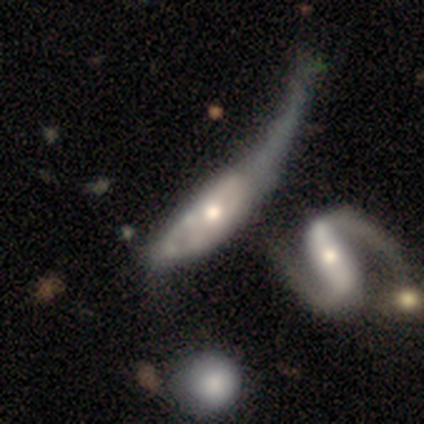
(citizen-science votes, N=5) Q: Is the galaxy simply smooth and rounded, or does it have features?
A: featured or disk — 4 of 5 (80%).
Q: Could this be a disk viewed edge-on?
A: no — 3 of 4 (75%).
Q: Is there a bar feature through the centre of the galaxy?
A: weak — 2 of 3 (67%).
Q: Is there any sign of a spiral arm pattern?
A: yes — 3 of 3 (100%).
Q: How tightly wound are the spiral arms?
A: loose — 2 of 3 (67%).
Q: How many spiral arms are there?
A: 1 — 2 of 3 (67%).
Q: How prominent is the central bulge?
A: small — 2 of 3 (67%).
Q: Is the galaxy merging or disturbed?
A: none — 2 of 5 (40%, tied with merger).